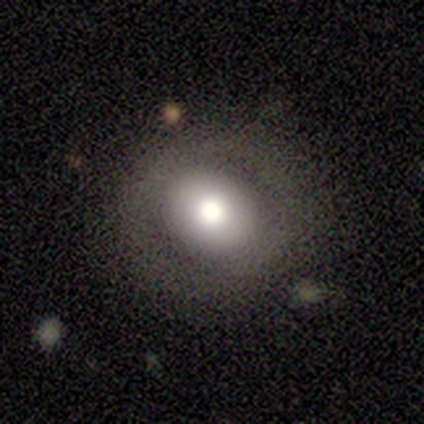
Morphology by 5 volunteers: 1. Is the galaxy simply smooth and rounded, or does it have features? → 60% featured or disk, 40% smooth, 0% star or artifact.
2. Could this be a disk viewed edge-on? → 100% no, 0% yes.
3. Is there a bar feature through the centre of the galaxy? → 100% no, 0% strong, 0% weak.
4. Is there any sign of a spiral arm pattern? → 100% no, 0% yes.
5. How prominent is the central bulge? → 67% large, 33% moderate, 0% dominant, 0% small, 0% none.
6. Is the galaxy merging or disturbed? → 100% none, 0% minor disturbance, 0% major disturbance, 0% merger.